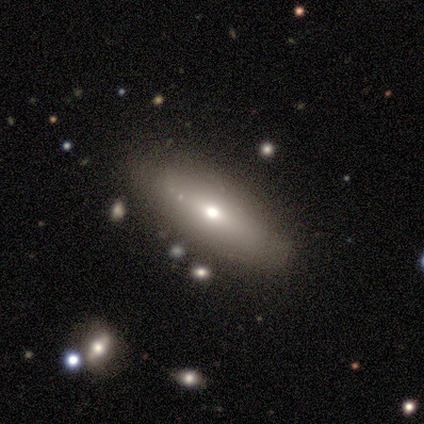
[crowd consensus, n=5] A featured or disk galaxy (60%) viewed edge-on (67%) with a rounded central bulge (100%). Merging: none (100%).